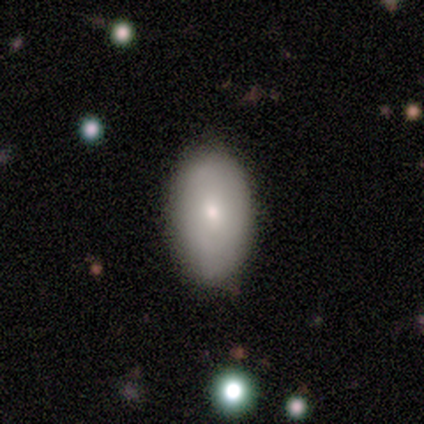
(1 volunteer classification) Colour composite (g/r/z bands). It shows a smooth galaxy with no disk features (100%) that is in between round and cigar-shaped (100%). Merging: merger (100%).